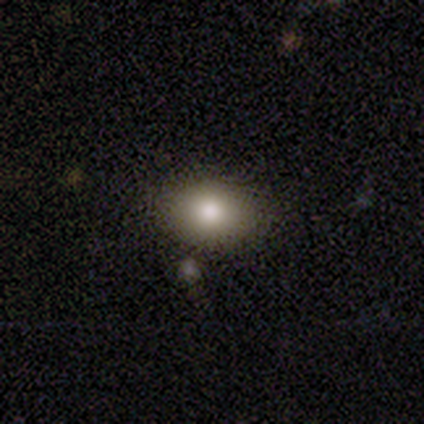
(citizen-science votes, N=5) This appears to be a smooth galaxy with no disk features (60%) that is in between round and cigar-shaped (100%). Merging: none (100%).